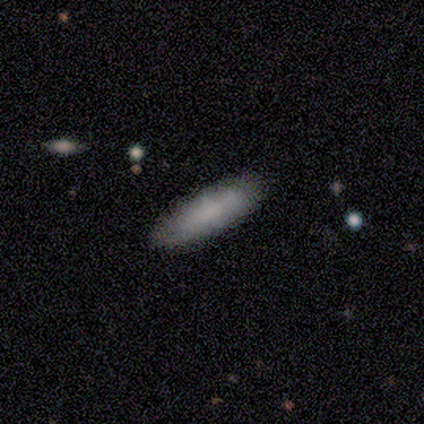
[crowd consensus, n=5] This appears to be a smooth galaxy with no disk features (80%) that is cigar-shaped (75%). Merging: none (100%).